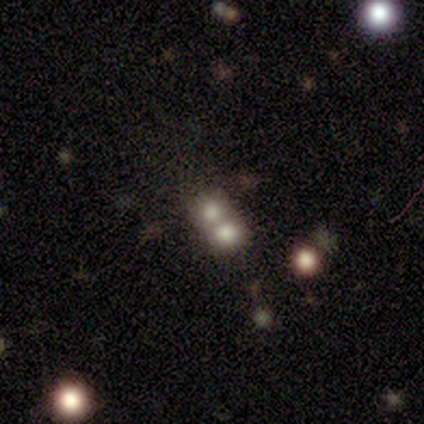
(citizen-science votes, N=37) Overall: smooth (57%; featured or disk 22%). How rounded: round (86%). Merging: merger (83%).